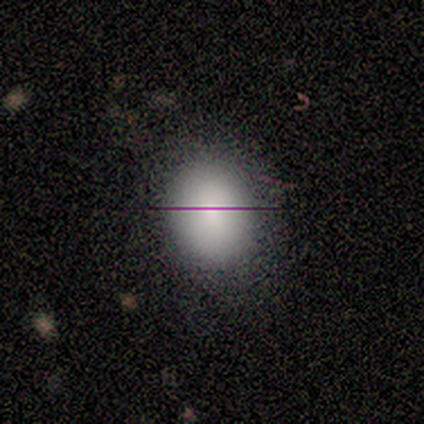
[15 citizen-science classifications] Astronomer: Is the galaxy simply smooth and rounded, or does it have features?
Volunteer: smooth — 87%.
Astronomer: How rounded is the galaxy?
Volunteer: round — 54% (runner-up: in between, 46%).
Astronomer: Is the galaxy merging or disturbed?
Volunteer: none — 79%.